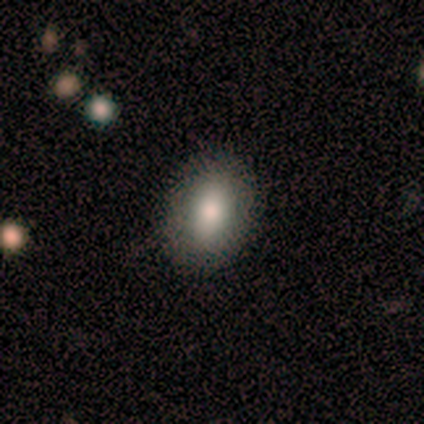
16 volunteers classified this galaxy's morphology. Q: Smooth or featured?
A: smooth (81%); runner-up: featured or disk (19%)
Q: How rounded?
A: in between (85%); runner-up: cigar-shaped (15%)
Q: Merging?
A: none (88%); runner-up: minor disturbance (12%)